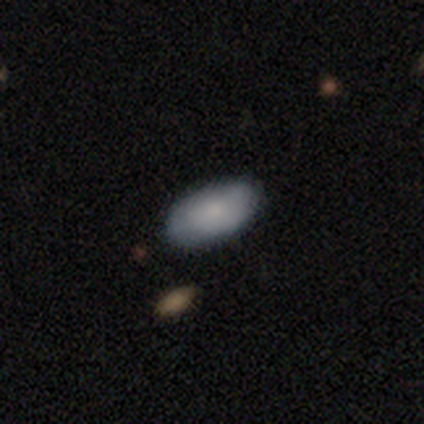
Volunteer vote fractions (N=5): Smooth or featured: smooth — 80% (star or artifact — 20%)
How rounded: in between — 100%
Merging: none — 100%